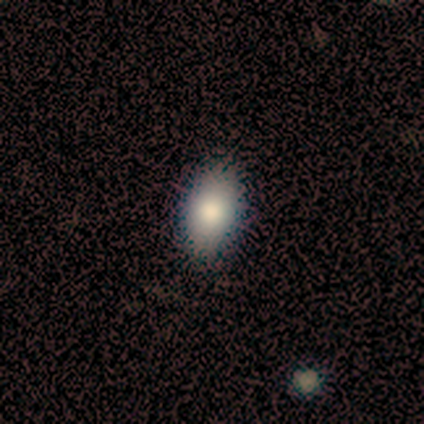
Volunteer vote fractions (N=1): Consensus on every question: smooth or featured — smooth (100%); how rounded — in between (100%); merging — none (100%).